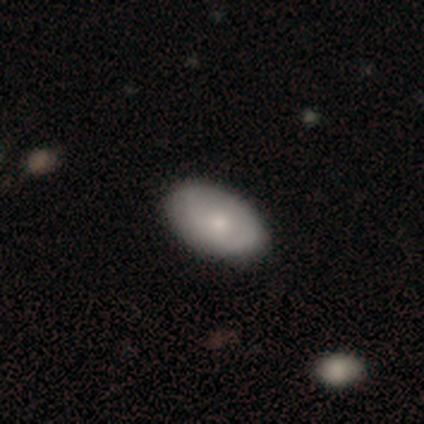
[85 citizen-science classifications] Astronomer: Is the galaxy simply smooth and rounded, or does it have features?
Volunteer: smooth — 66%.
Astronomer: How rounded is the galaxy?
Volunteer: in between — 95%.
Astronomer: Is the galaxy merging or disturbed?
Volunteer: none — 86%.